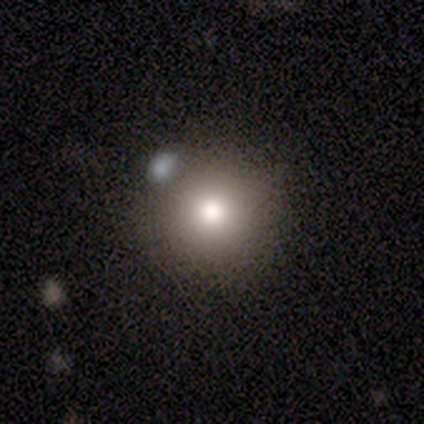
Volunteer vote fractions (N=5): smooth_or_featured: smooth (p=0.60) [alt: featured or disk p=0.20]
how_rounded: round (p=1.00)
merging: none (p=1.00)